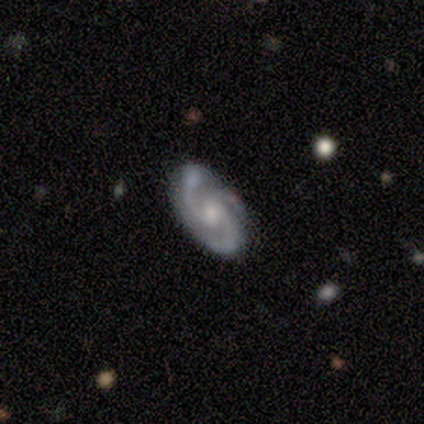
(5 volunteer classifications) Smooth or featured? 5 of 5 (100%) said featured or disk. Edge-on disk? 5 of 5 (100%) said no. Bar? 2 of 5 (40%, tied with weak) said strong. Spiral arms? 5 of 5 (100%) said yes. Spiral winding? 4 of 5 (80%) said tight. Spiral arm count? 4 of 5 (80%) said 2. Bulge size? 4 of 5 (80%) said moderate. Merging? 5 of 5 (100%) said none.